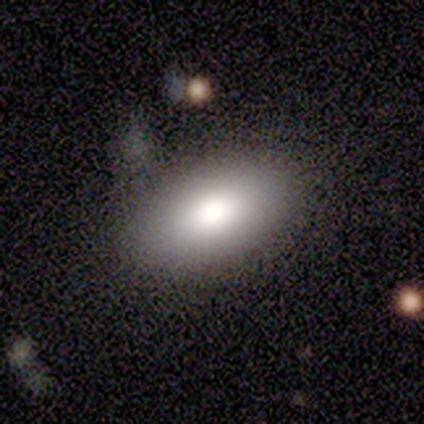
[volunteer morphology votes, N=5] Overall: smooth (100%). How rounded: in between (100%). Merging: none (80%).